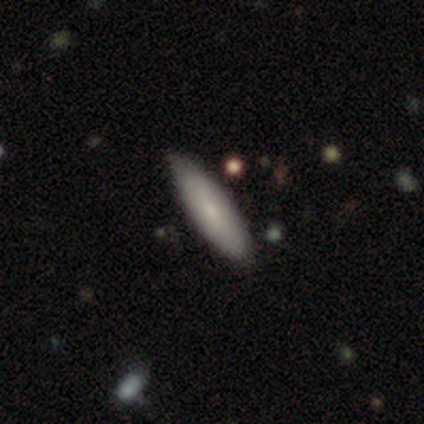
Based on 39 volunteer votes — smooth 69%, featured or disk 26%, star or artifact 5%. Down the decision tree: how rounded — cigar-shaped (56%); merging — none (59%).